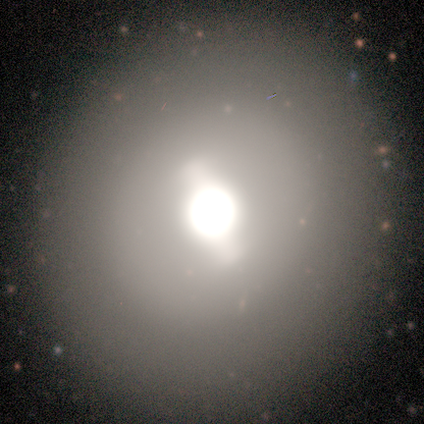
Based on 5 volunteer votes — Smooth or featured?
  - featured or disk: 60% *
  - smooth: 20%
  - star or artifact: 20%
Edge-on disk?
  - no: 100% *
  - yes: 0%
Bar?
  - strong: 67% *
  - weak: 33%
  - no: 0%
Spiral arms?
  - no: 100% *
  - yes: 0%
Bulge size?
  - large: 67% *
  - moderate: 33%
  - dominant: 0%
  - small: 0%
  - none: 0%
Merging?
  - none: 100% *
  - minor disturbance: 0%
  - major disturbance: 0%
  - merger: 0%